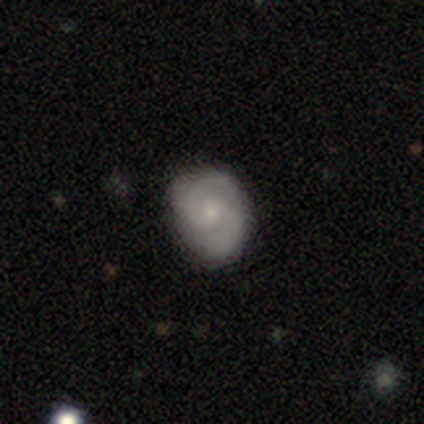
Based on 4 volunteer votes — Overall: featured or disk (75%). Edge-on disk: no (100%). Bar: no (100%). Spiral arms: yes (100%). Spiral arm count: 2 (100%). Spiral winding: tight (67%; medium 33%). Bulge size: small (100%). Merging: none (50%; minor disturbance 25%).